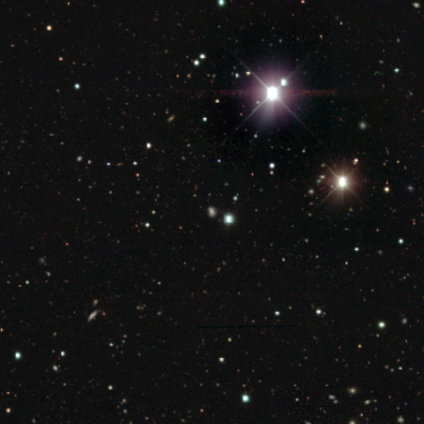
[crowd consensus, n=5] Smooth or featured? star or artifact (60%)